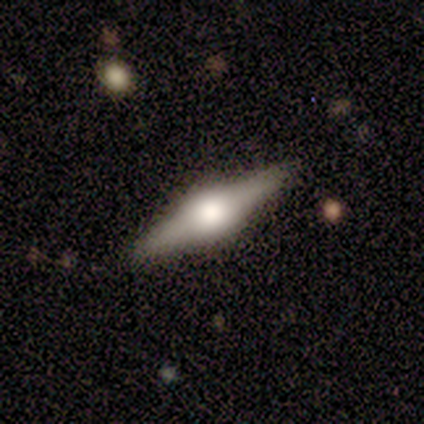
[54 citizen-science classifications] Q: Smooth or featured?
A: featured or disk (81%); runner-up: smooth (17%)
Q: Edge-on disk?
A: yes (98%); runner-up: no (2%)
Q: Edge-on bulge?
A: rounded (79%); runner-up: boxy (21%)
Q: Merging?
A: none (94%); runner-up: minor disturbance (6%)